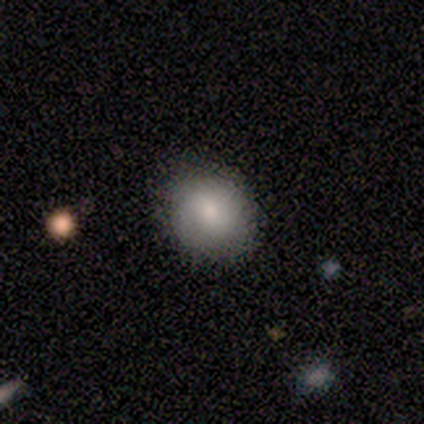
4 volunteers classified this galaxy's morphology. smooth 100%, featured or disk 0%, star or artifact 0%. Down the decision tree: how rounded — in between (75%); merging — none (100%).